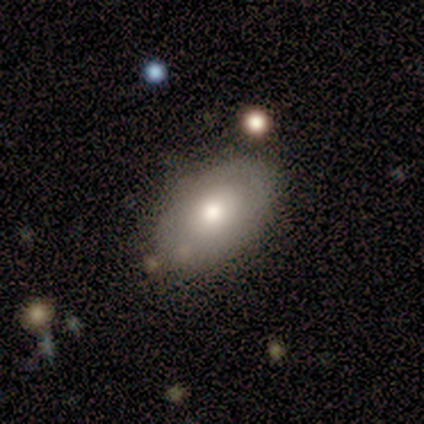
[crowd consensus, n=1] Smooth or featured? featured or disk (100%)
Edge-on disk? no (100%)
Bar? no (100%)
Spiral arms? no (100%)
Bulge size? moderate (100%)
Merging? none (100%)